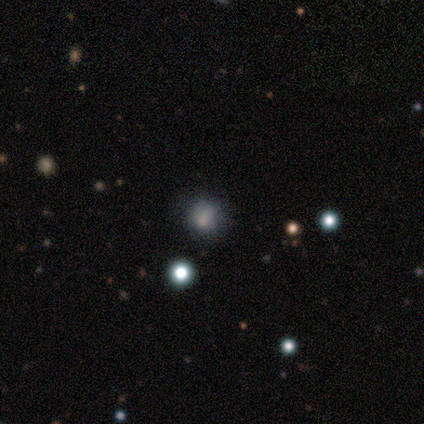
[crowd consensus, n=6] smooth_or_featured: smooth (p=0.50) [tied with: star or artifact p=0.50]
how_rounded: round (p=0.67) [alt: in between p=0.33]
merging: none (p=0.67) [alt: major disturbance p=0.33]